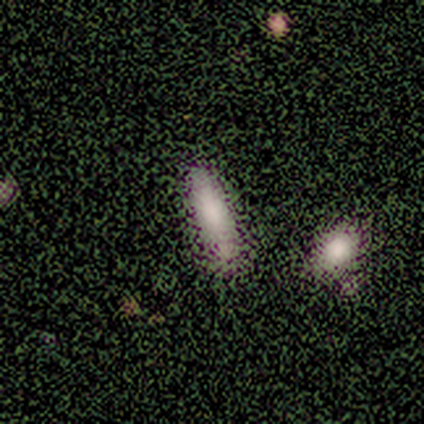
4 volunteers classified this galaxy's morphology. smooth-or-featured: smooth: 75% | star or artifact: 25% | featured or disk: 0%
  how-rounded: in between: 67% | cigar-shaped: 33% | round: 0%
  merging: none: 67% | merger: 33% | minor disturbance: 0% | major disturbance: 0%